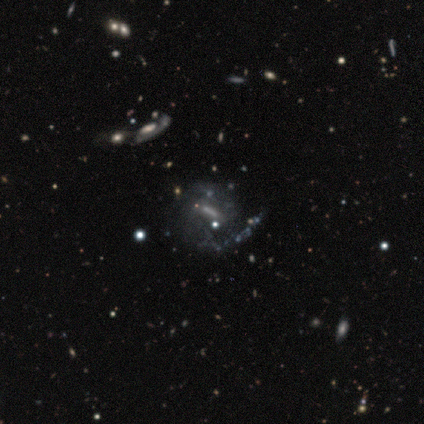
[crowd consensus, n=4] Smooth or featured? 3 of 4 (75%) said featured or disk. Edge-on disk? 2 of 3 (67%) said no. Bar? 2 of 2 (100%) said strong. Spiral arms? 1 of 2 (50%, tied with no) said yes. Spiral winding? 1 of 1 (100%) said tight. Spiral arm count? 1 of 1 (100%) said 1. Bulge size? 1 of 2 (50%, tied with none) said dominant. Merging? 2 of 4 (50%) said none.